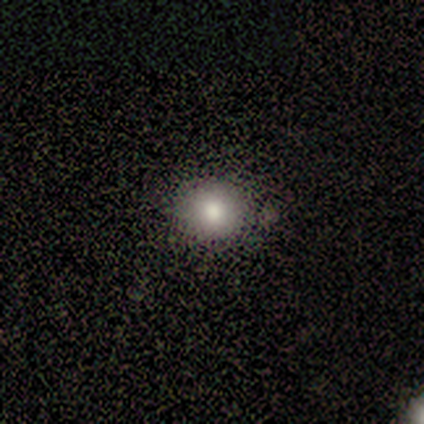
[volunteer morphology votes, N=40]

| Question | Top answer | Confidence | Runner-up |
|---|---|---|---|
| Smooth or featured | smooth | 75% | featured or disk (15%) |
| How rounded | round | 87% | in between (13%) |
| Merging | none | 92% | minor disturbance (6%) |